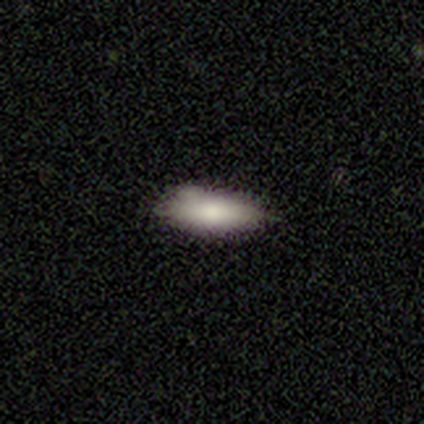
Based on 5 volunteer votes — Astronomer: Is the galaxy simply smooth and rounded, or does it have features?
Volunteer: smooth — 100%.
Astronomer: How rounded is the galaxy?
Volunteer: in between — 80%.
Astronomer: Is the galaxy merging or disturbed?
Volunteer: none — 40%, tied with minor disturbance at 40%.